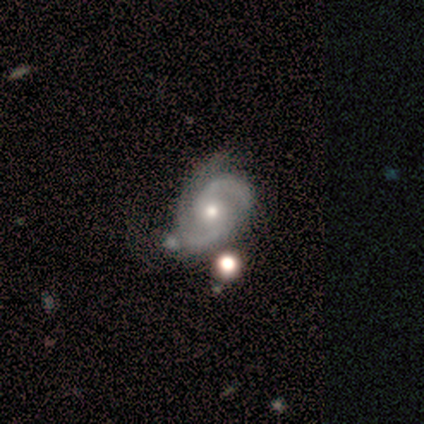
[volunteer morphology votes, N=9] Volunteers were most divided on "bulge size": moderate: 56%, small: 44%, dominant: 0%, large: 0%, none: 0%. More confident: smooth or featured — featured or disk (100%); edge-on disk — no (100%); spiral arms — yes (100%); spiral arm count — 2 (78%); bar — no (67%); merging — none (67%); spiral winding — medium (56%).